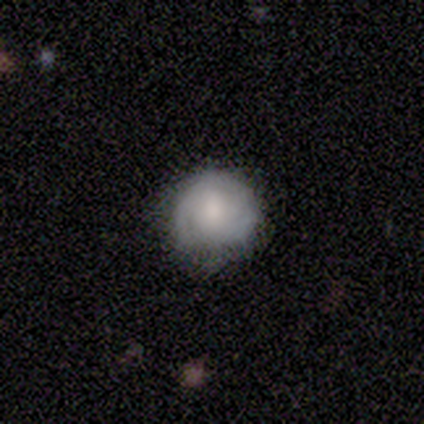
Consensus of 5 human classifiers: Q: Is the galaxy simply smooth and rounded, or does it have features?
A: smooth — 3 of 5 (60%).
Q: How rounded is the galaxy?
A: round — 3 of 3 (100%).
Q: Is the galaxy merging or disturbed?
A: minor disturbance — 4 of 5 (80%).